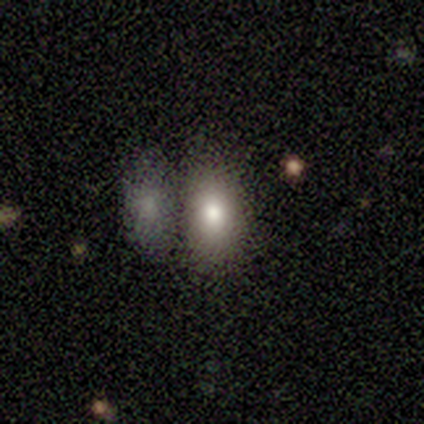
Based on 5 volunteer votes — Smooth or featured? smooth (60%)
How rounded? in between (100%)
Merging? none (50%, tied with merger)